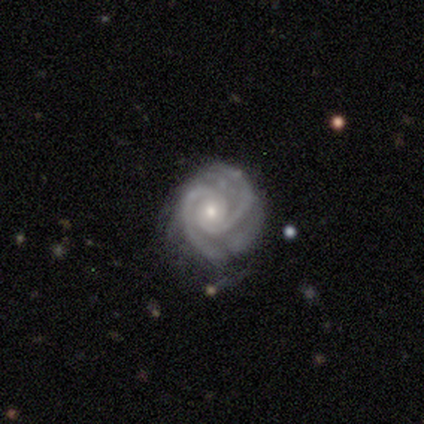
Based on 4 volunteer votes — A featured or disk galaxy (100%) with no bar (100%), 2 (75%) tight (75%) spiral arms (100%) and a small central bulge (100%).

Vote fractions:
- Smooth or featured? featured or disk: 100% / smooth: 0% / star or artifact: 0%
- Edge-on disk? no: 100% / yes: 0%
- Bar? no: 100% / strong: 0% / weak: 0%
- Spiral arms? yes: 100% / no: 0%
- Spiral winding? tight: 75% / medium: 25% / loose: 0%
- Spiral arm count? 2: 75% / 3: 25% / 1: 0% / 4: 0% / more than 4: 0% / can't tell: 0%
- Bulge size? small: 100% / dominant: 0% / large: 0% / moderate: 0% / none: 0%
- Merging? none: 100% / minor disturbance: 0% / major disturbance: 0% / merger: 0%